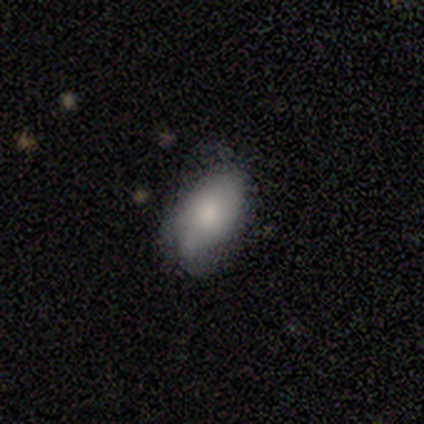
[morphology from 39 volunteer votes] type=smooth (74%); roundness=in between (90%); merging=none (45%).